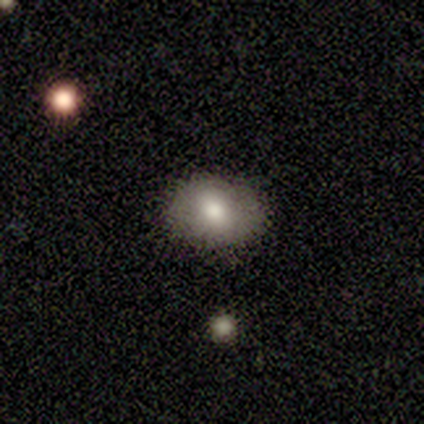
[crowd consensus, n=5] Smooth or featured?
  - smooth: 80% *
  - featured or disk: 20%
  - star or artifact: 0%
How rounded?
  - round: 50% * (tied)
  - in between: 50% * (tied)
  - cigar-shaped: 0%
Merging?
  - none: 100% *
  - minor disturbance: 0%
  - major disturbance: 0%
  - merger: 0%